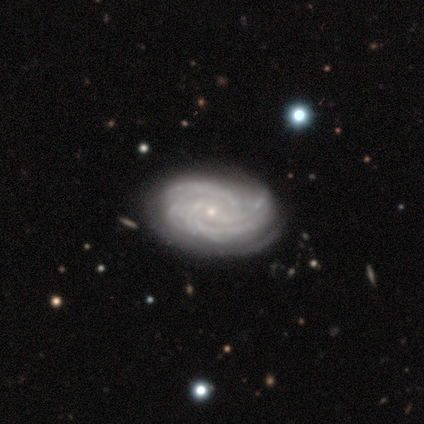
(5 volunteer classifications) This appears to be a featured or disk galaxy (100%) with no bar (75%), 2 (50%, tied with can't tell) tight (75%) spiral arms (100%) and a small central bulge (75%). Merging: none (60%).